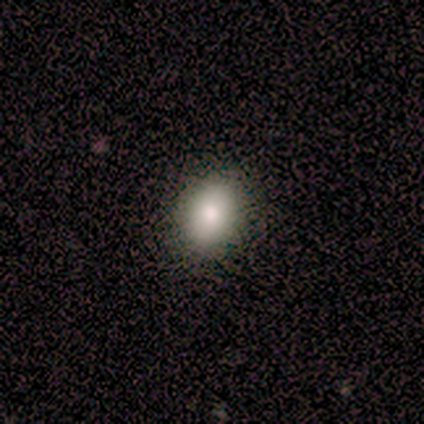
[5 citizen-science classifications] smooth_or_featured: smooth (p=0.60) [alt: featured or disk p=0.20]
how_rounded: in between (p=1.00)
merging: none (p=1.00)